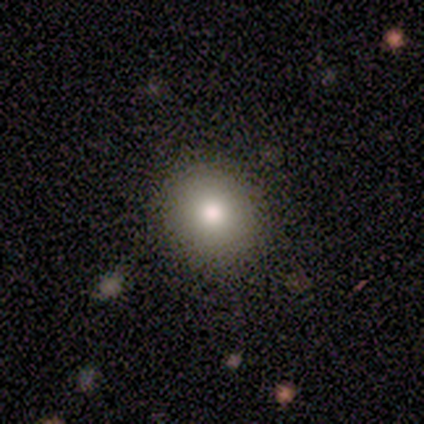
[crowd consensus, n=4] Volunteers were most divided on "smooth or featured": star or artifact: 50%, smooth: 25%, featured or disk: 25%.